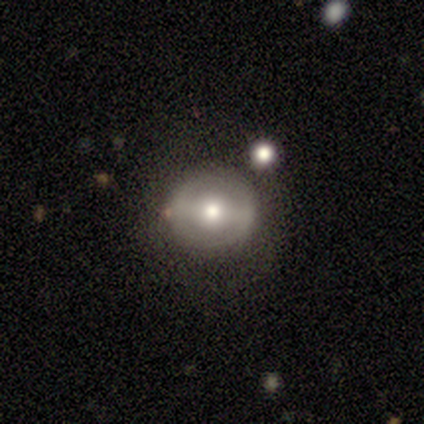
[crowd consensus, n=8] Smooth or featured? smooth (50%, tied with featured or disk)
How rounded? round (100%)
Merging? none (88%)